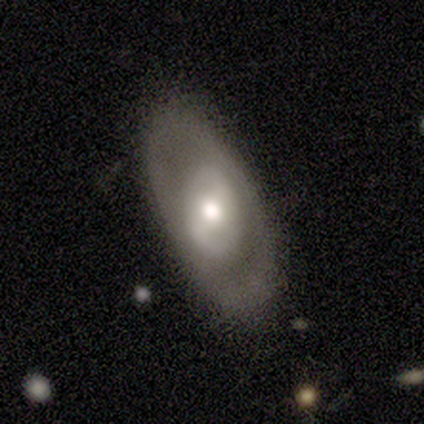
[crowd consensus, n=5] Smooth or featured? featured or disk (60%)
Edge-on disk? no (100%)
Bar? no (67%)
Spiral arms? no (100%)
Bulge size? moderate (67%)
Merging? none (50%)